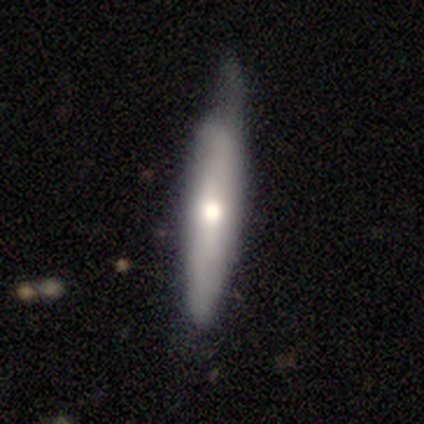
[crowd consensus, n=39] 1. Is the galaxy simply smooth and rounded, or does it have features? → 51% featured or disk, 49% smooth, 0% star or artifact.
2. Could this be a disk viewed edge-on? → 80% yes, 20% no.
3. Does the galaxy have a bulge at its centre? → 94% rounded, 6% none, 0% boxy.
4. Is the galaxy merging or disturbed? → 54% none, 36% minor disturbance, 10% major disturbance, 0% merger.